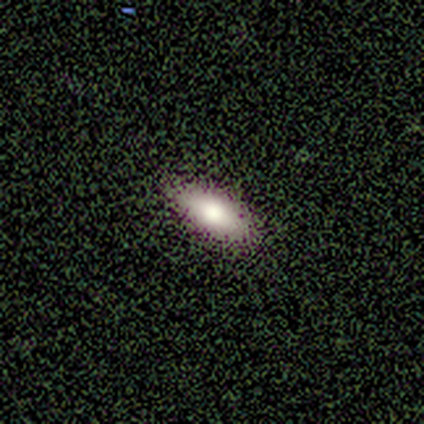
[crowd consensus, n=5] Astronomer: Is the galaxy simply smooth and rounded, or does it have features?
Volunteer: smooth — 60% (runner-up: featured or disk, 40%).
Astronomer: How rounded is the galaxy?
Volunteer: in between — 100%.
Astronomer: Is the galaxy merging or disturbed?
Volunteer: none — 80%.